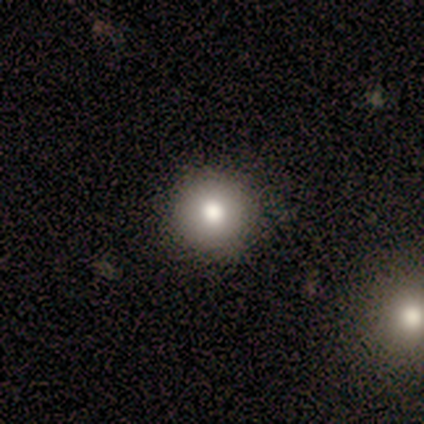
Q: Smooth or featured?
A: smooth (80%); runner-up: star or artifact (20%)
Q: How rounded?
A: round (100%)
Q: Merging?
A: none (100%)